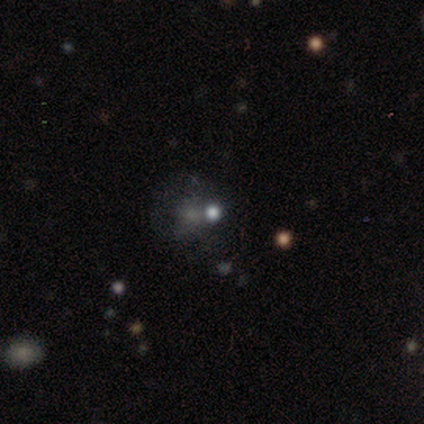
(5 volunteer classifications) smooth 80%, star or artifact 20%, featured or disk 0%. Down the decision tree: how rounded — round (100%); merging — none (75%).